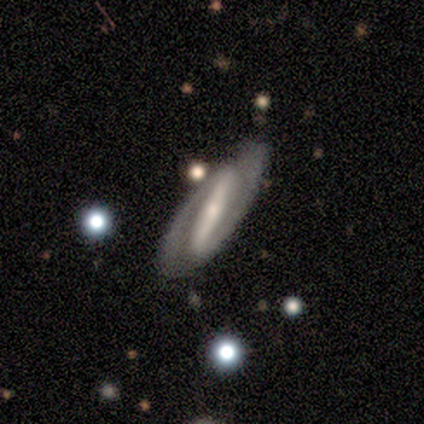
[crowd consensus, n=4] A featured or disk galaxy (100%) with a strong bar (100%), 2 (100%) tight (67%) spiral arms (100%) and a moderate central bulge (67%). Merging: none (50%, tied with minor disturbance).